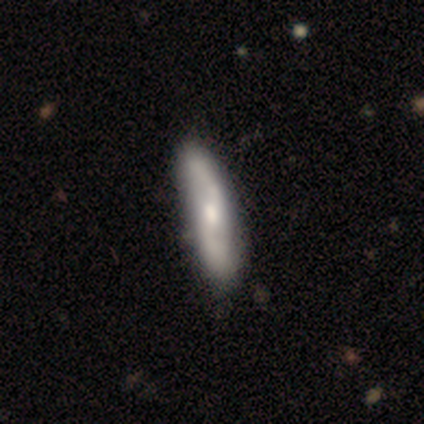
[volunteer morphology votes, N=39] smooth-or-featured: featured or disk: 77% | smooth: 15% | star or artifact: 8%
  disk-edge-on: no: 83% | yes: 17%
    bar: weak: 52% | no: 40% | strong: 8%
    has-spiral-arms: yes: 96% | no: 4%
      spiral-winding: loose: 67% | medium: 29% | tight: 4%
      spiral-arm-count: 2: 100% | 1: 0% | 3: 0% | 4: 0% | more than 4: 0% | can't tell: 0%
    bulge-size: moderate: 68% | large: 12% | none: 12% | small: 8% | dominant: 0%
  merging: none: 61% | minor disturbance: 17% | merger: 6% | major disturbance: 0%